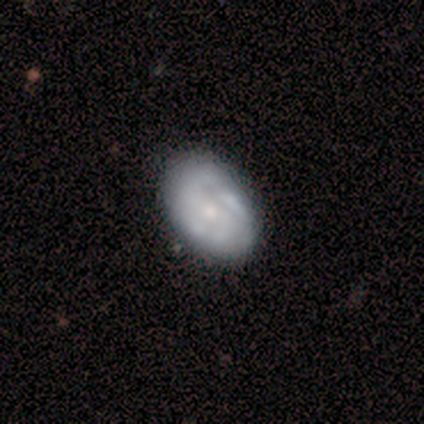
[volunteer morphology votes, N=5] Smooth or featured? featured or disk (100%)
Edge-on disk? no (100%)
Bar? no (100%)
Spiral arms? yes (60%)
Spiral winding? tight (67%)
Spiral arm count? can't tell (67%)
Bulge size? moderate (60%)
Merging? none (60%)